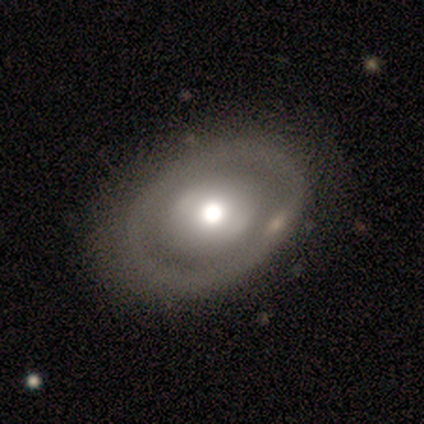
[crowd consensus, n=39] Smooth or featured: featured or disk — 64% (smooth — 36%)
Edge-on disk: no — 96% (yes — 4%)
Bar: no — 79% (weak — 17%)
Spiral arms: no — 96% (yes — 4%)
Bulge size: moderate — 54% (large — 38%)
Merging: none — 36% (minor disturbance — 8%)